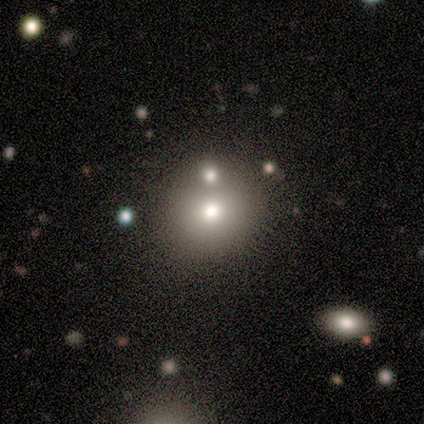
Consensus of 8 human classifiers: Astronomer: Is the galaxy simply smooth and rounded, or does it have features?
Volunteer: smooth — 50%.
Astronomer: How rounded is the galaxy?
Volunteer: round — 75%.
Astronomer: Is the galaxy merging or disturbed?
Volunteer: none — 50%, tied with merger at 50%.